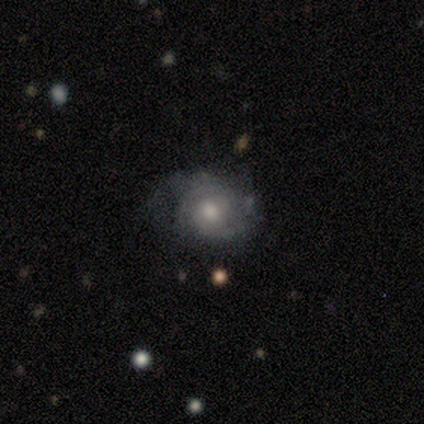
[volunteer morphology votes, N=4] A featured or disk galaxy (75%) with no bar (100%), tight (67%) spiral arms (100%) and a moderate central bulge (67%).

Vote fractions:
- Smooth or featured? featured or disk: 75% / smooth: 25% / star or artifact: 0%
- Edge-on disk? no: 100% / yes: 0%
- Bar? no: 100% / strong: 0% / weak: 0%
- Spiral arms? yes: 100% / no: 0%
- Spiral winding? tight: 67% / medium: 33% / loose: 0%
- Spiral arm count? can't tell: 100% / 1: 0% / 2: 0% / 3: 0% / 4: 0% / more than 4: 0%
- Bulge size? moderate: 67% / small: 33% / dominant: 0% / large: 0% / none: 0%
- Merging? none: 50% / minor disturbance: 25% / major disturbance: 25% / merger: 0%